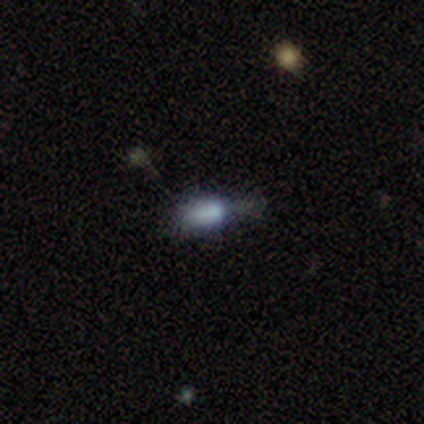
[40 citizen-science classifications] Q: Smooth or featured?
A: smooth (60%); runner-up: star or artifact (22%)
Q: How rounded?
A: in between (83%); runner-up: cigar-shaped (17%)
Q: Merging?
A: minor disturbance (45%); runner-up: none (39%)